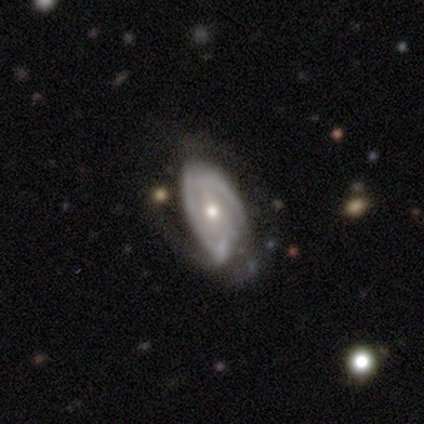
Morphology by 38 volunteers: smooth_or_featured: featured or disk (p=0.82) [alt: smooth p=0.18]
disk_edge_on: no (p=0.97) [alt: yes p=0.03]
bar: no (p=0.60) [alt: weak p=0.23]
has_spiral_arms: yes (p=0.77) [alt: no p=0.23]
spiral_winding: tight (p=0.57) [alt: medium p=0.30]
spiral_arm_count: 2 (p=0.48) [alt: can't tell p=0.43]
bulge_size: moderate (p=0.73) [alt: small p=0.23]
merging: none (p=0.53) [alt: minor disturbance p=0.32]